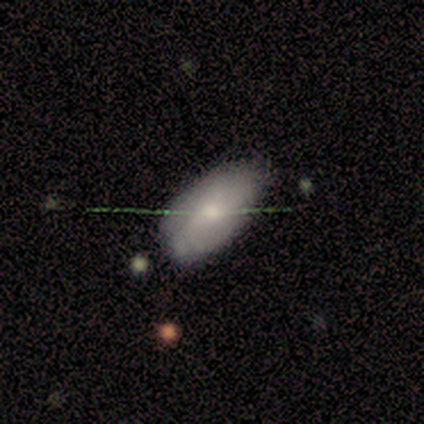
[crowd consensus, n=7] Volunteers were most divided on "spiral arms" (2-way tie): yes: 50%, no: 50%; "spiral winding" (2-way tie): tight: 50%, medium: 50%, loose: 0%. More confident: edge-on disk — no (100%); bar — no (100%); spiral arm count — can't tell (100%); bulge size — moderate (100%); merging — none (83%); smooth or featured — featured or disk (57%).